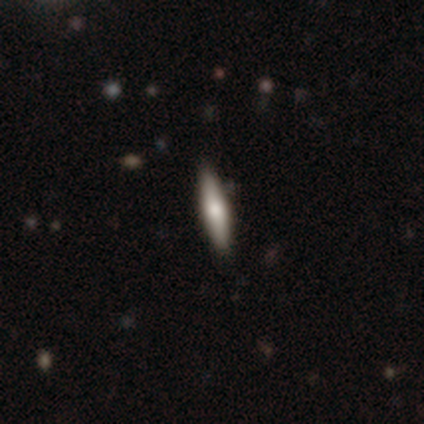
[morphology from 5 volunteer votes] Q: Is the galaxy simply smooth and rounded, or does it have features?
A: smooth — 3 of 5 (60%).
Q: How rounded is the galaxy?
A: in between — 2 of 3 (67%).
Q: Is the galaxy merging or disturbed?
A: none — 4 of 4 (100%).